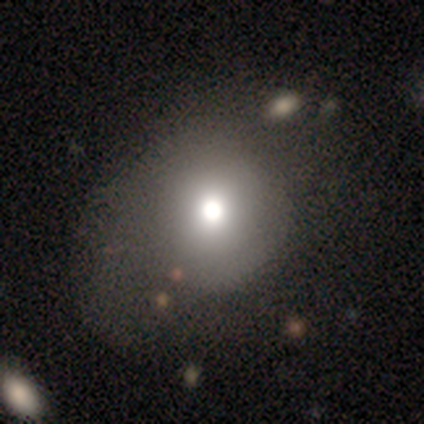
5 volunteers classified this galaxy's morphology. Smooth or featured? 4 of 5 (80%) said smooth. How rounded? 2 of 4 (50%, tied with in between) said round. Merging? 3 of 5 (60%) said none.